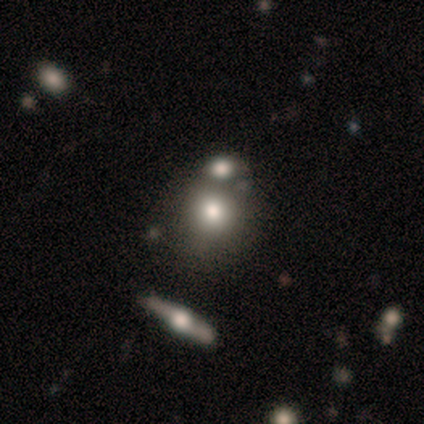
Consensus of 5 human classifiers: Volunteers were most divided on "smooth or featured" (2-way tie): smooth: 40%, featured or disk: 40%, star or artifact: 20%; "merging" (2-way tie): none: 50%, merger: 50%, minor disturbance: 0%, major disturbance: 0%. More confident: how rounded — round (100%).